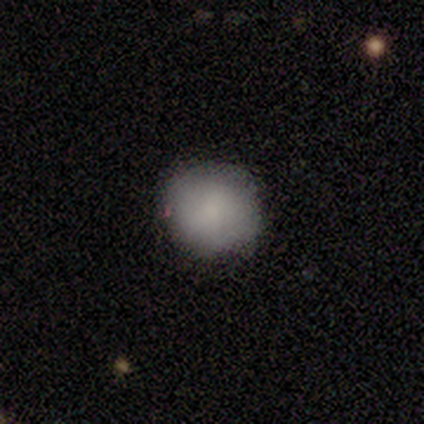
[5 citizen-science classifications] Overall: smooth (100%). How rounded: round (100%). Merging: none (100%).